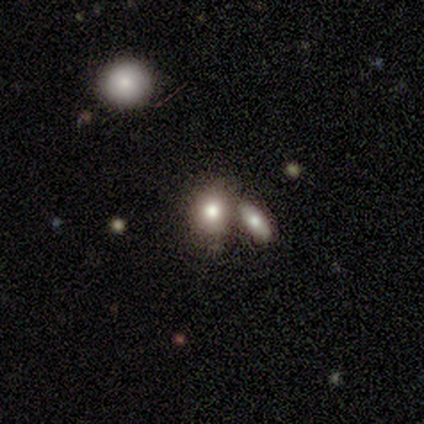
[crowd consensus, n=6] This appears to be a smooth galaxy with no disk features (67%) that is in between round and cigar-shaped (100%). Merging: merger (50%).